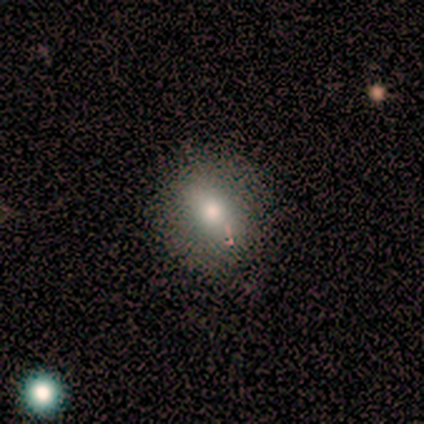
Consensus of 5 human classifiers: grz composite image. It shows a smooth galaxy with no disk features (40%, tied with featured or disk) that is round (50%, tied with in between). Merging: none (75%).